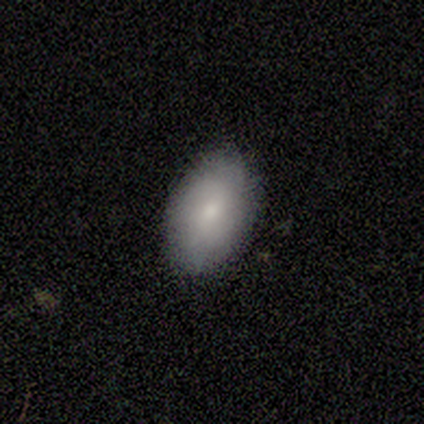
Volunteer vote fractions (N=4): smooth 75%, star or artifact 25%, featured or disk 0%. Down the decision tree: how rounded — in between (100%); merging — none (67%).